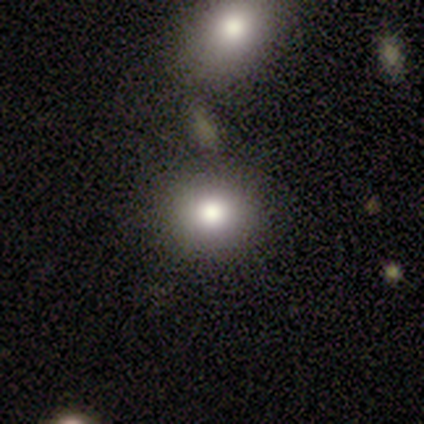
This is clearly a smooth galaxy (83%). How rounded: clearly round (80%). Merging: clearly none (83%).